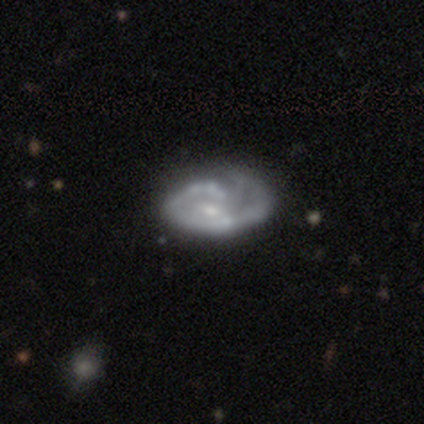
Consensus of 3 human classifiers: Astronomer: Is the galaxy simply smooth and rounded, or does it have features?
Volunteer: featured or disk — 100%.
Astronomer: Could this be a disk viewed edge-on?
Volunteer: no — 100%.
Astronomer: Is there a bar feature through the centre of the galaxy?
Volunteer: no — 67%.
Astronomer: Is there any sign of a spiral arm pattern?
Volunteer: yes — 67%.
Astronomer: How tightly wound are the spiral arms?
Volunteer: medium — 100%.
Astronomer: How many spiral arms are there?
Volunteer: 1 — 50%, tied with can't tell at 50%.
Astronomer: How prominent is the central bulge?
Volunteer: small — 67%.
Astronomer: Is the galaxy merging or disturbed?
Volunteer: none — 100%.